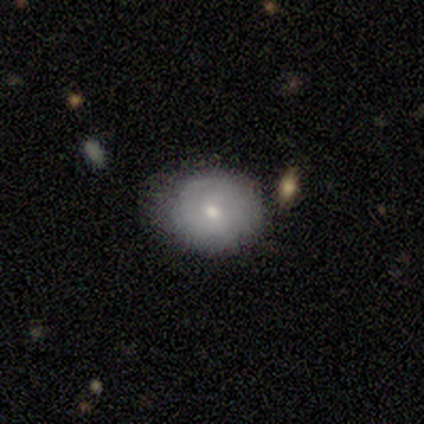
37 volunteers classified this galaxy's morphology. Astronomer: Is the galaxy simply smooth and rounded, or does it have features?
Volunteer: smooth — 62%.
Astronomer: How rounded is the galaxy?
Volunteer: round — 83%.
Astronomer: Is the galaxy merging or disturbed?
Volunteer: none — 69%.